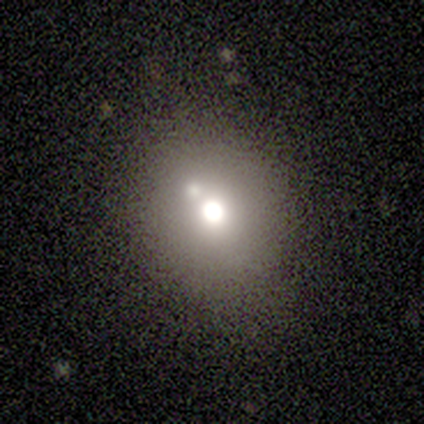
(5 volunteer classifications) Q: Smooth or featured?
A: smooth (60%); runner-up: featured or disk (20%)
Q: How rounded?
A: in between (67%); runner-up: round (33%)
Q: Merging?
A: none (75%); runner-up: merger (25%)